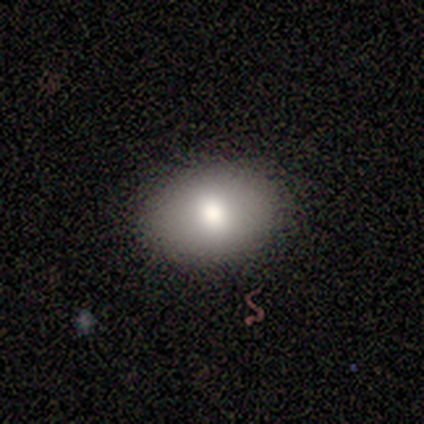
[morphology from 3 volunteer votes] smooth-or-featured: smooth: 33% (tied) | featured or disk: 33% (tied) | star or artifact: 33% (tied)
  how-rounded: in between: 100% | round: 0% | cigar-shaped: 0%
  merging: none: 100% | minor disturbance: 0% | major disturbance: 0% | merger: 0%